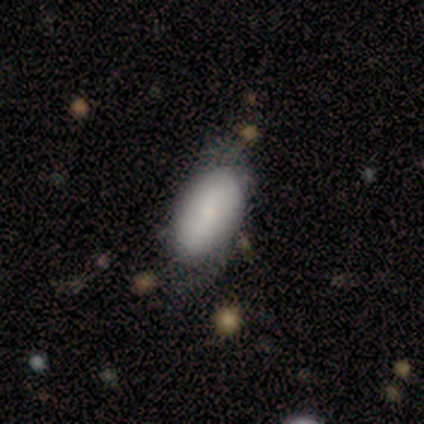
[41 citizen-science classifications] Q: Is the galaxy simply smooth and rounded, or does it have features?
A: smooth — 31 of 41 (76%).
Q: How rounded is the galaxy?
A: in between — 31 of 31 (100%).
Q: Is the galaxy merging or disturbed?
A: none — 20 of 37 (54%).